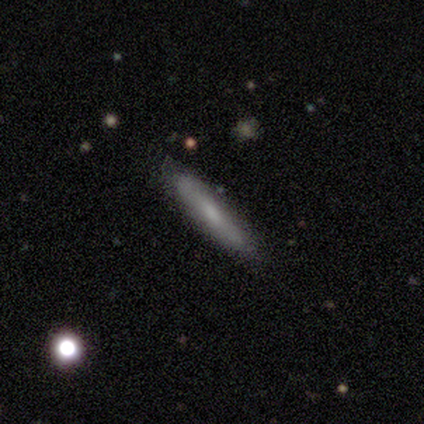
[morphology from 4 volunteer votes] smooth_or_featured: smooth (p=0.50) [alt: featured or disk p=0.25]
how_rounded: cigar-shaped (p=1.00)
merging: none (p=0.67) [alt: minor disturbance p=0.33]